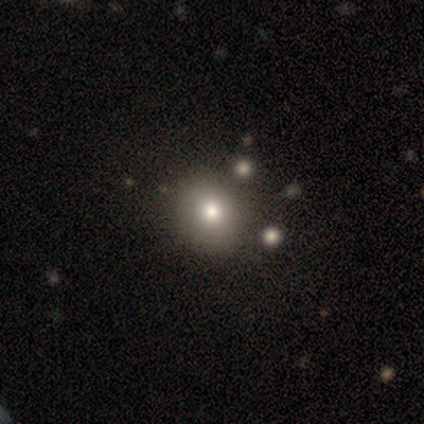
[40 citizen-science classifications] This appears to be a smooth galaxy with no disk features (75%) that is round (67%). Merging: none (42%).